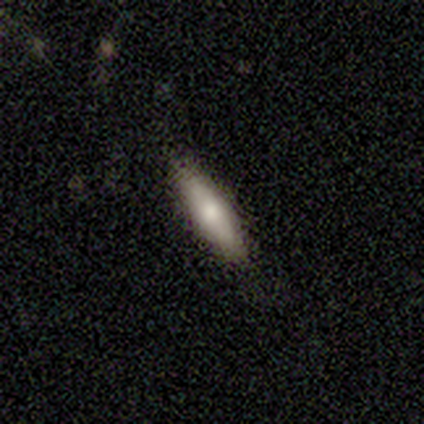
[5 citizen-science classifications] smooth_or_featured: smooth (p=0.60) [alt: featured or disk p=0.40]
how_rounded: in between (p=0.67) [alt: cigar-shaped p=0.33]
merging: none (p=0.80) [alt: minor disturbance p=0.20]